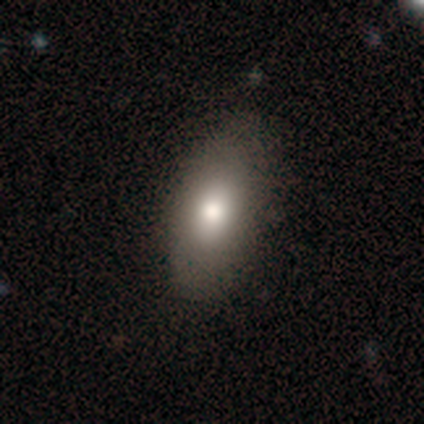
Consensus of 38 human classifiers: smooth 68%, featured or disk 18%, star or artifact 13%. Down the decision tree: how rounded — in between (92%); merging — none (67%).